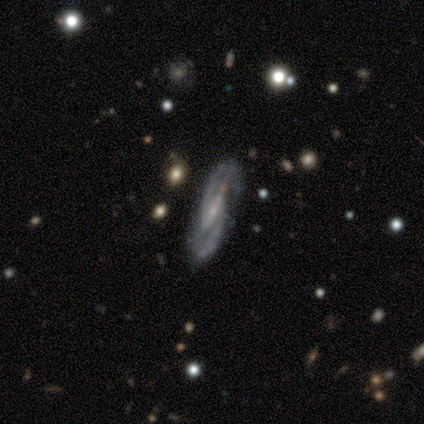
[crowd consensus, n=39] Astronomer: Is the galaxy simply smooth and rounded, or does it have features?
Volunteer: featured or disk — 90%.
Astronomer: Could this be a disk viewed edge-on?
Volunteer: no — 94%.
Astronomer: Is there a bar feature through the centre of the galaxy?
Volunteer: strong — 61% (runner-up: weak, 36%).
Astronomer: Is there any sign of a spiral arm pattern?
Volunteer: yes — 97%.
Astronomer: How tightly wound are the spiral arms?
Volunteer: medium — 44% (runner-up: tight, 38%).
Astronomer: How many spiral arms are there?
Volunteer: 2 — 94%.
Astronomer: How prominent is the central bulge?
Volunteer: small — 79%.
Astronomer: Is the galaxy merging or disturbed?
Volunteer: none — 81%.